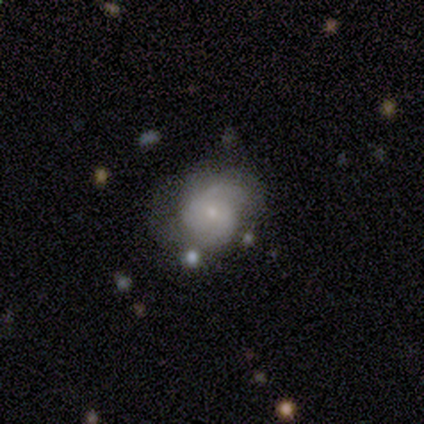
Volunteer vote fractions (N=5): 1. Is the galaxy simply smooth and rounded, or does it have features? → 60% featured or disk, 20% smooth, 20% star or artifact.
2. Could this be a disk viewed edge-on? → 100% no, 0% yes.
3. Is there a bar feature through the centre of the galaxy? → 100% no, 0% strong, 0% weak.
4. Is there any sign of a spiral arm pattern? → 100% yes, 0% no.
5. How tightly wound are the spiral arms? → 67% medium, 33% loose, 0% tight.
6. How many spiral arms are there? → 33% 2 (tied), 33% 3 (tied), 33% can't tell (tied), 0% 1, 0% 4, 0% more than 4.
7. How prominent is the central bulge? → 100% small, 0% dominant, 0% large, 0% moderate, 0% none.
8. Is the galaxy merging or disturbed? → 75% none, 25% minor disturbance, 0% major disturbance, 0% merger.